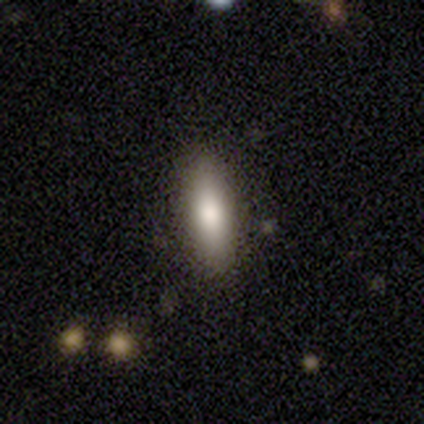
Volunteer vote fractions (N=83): A smooth galaxy with no disk features (73%) that is cigar-shaped (64%).

Vote fractions:
- Smooth or featured? smooth: 73% / featured or disk: 18% / star or artifact: 8%
- How rounded? cigar-shaped: 64% / in between: 34% / round: 2%
- Merging? none: 88% / minor disturbance: 8% / merger: 3% / major disturbance: 1%